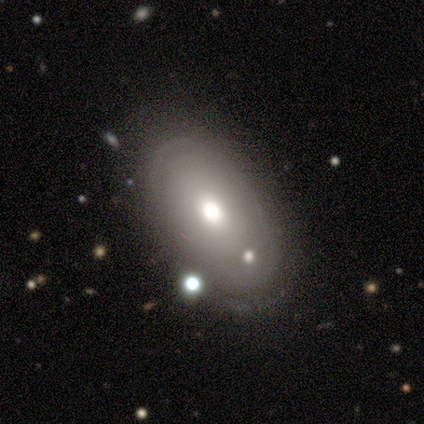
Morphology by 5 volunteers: This appears to be a smooth galaxy with no disk features (80%) that is round (50%, tied with in between). Merging: none (100%).